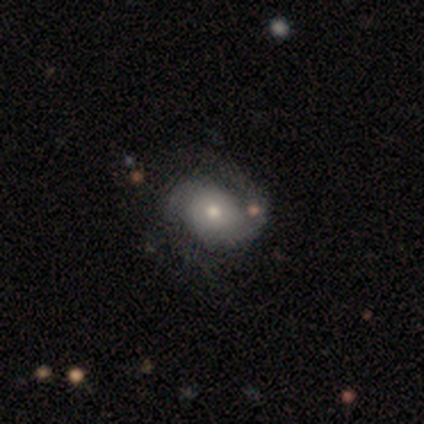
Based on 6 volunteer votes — smooth_or_featured: featured or disk (p=0.83) [alt: smooth p=0.17]
disk_edge_on: no (p=1.00)
bar: no (p=0.80) [alt: weak p=0.20]
has_spiral_arms: yes (p=1.00)
spiral_winding: medium (p=0.60) [alt: tight p=0.40]
spiral_arm_count: 2 (p=1.00)
bulge_size: moderate (p=0.60) [alt: small p=0.40]
merging: none (p=0.83) [alt: major disturbance p=0.17]